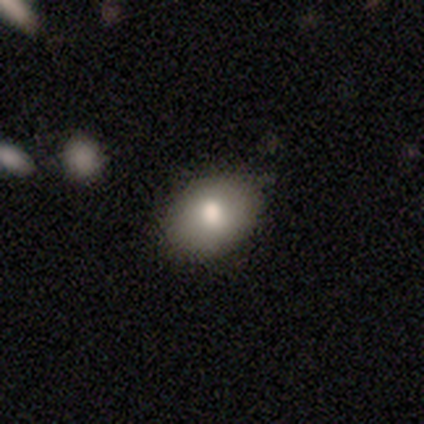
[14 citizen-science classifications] This is likely a smooth galaxy (71%). How rounded: clearly in between (100%). Merging: clearly none (86%).